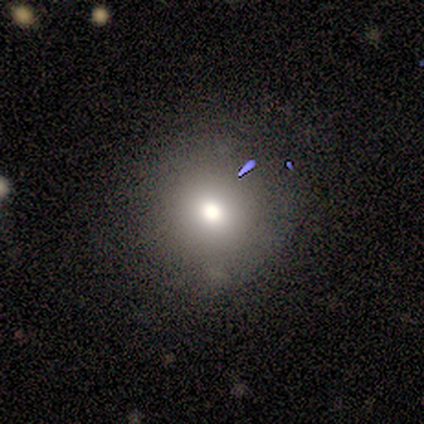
smooth_or_featured: smooth (p=1.00)
how_rounded: round (p=1.00)
merging: none (p=1.00)